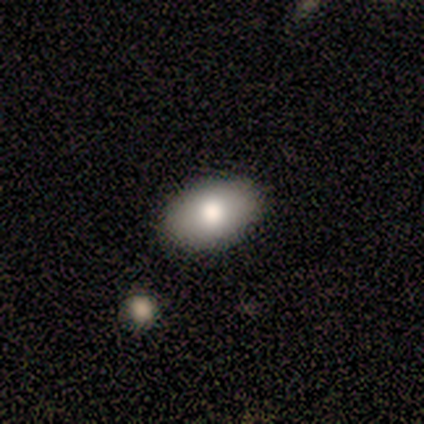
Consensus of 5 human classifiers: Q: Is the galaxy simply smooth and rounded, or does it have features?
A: smooth — 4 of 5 (80%).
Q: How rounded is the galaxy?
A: in between — 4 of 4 (100%).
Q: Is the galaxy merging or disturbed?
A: none — 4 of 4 (100%).